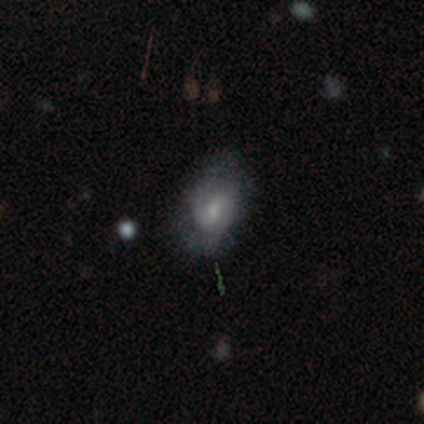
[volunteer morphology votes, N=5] This is likely a featured or disk galaxy (60%). It is clearly not viewed edge-on (100%). Bar: likely no (67%). Spiral arm pattern: clearly yes (100%). Spiral arm count: clearly 2 (100%). Spiral winding: likely medium (67%). Central bulge: likely small (67%). Merging: likely minor disturbance (60%).